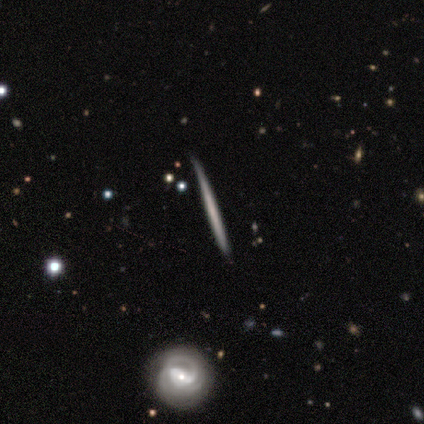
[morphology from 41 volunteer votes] Smooth or featured: featured or disk — 54% (smooth — 44%)
Edge-on disk: yes — 95% (no — 5%)
Edge-on bulge: none — 95% (rounded — 5%)
Merging: none — 88% (minor disturbance — 10%)